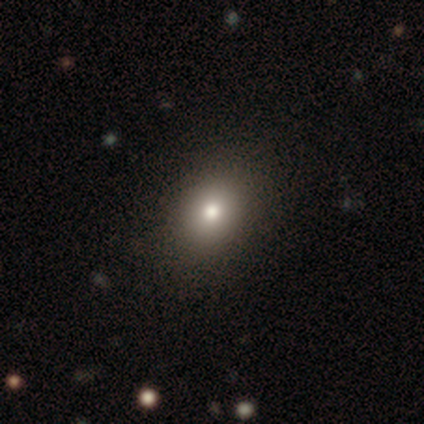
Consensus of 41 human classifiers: This is clearly a smooth galaxy (88%). How rounded: likely in between (67%). Merging: clearly none (100%).